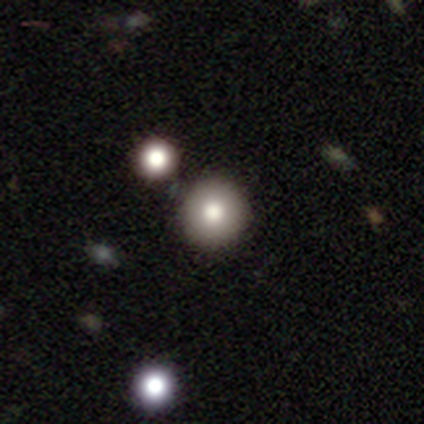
Q: Smooth or featured?
A: smooth (78%); runner-up: featured or disk (12%)
Q: How rounded?
A: round (98%); runner-up: in between (2%)
Q: Merging?
A: none (88%); runner-up: minor disturbance (5%)